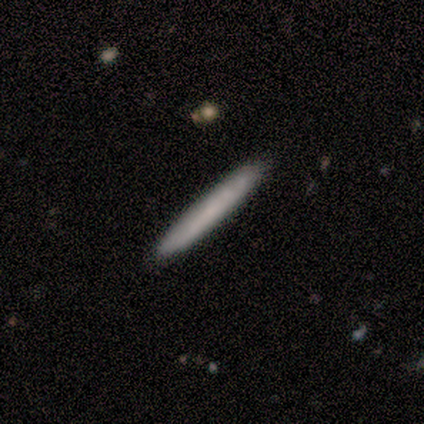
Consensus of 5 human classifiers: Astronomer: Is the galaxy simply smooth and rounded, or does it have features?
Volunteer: smooth — 100%.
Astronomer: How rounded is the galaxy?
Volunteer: cigar-shaped — 100%.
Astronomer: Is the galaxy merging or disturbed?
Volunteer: none — 100%.